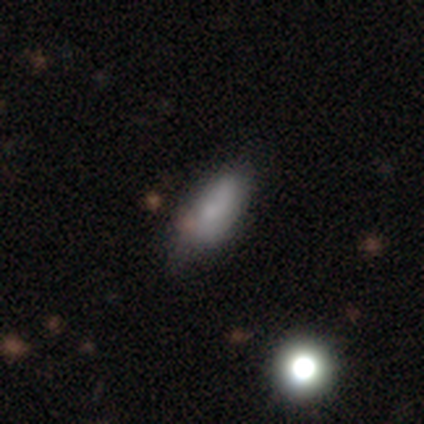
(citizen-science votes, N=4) smooth 75%, star or artifact 25%, featured or disk 0%. Down the decision tree: how rounded — in between (100%); merging — none (100%).